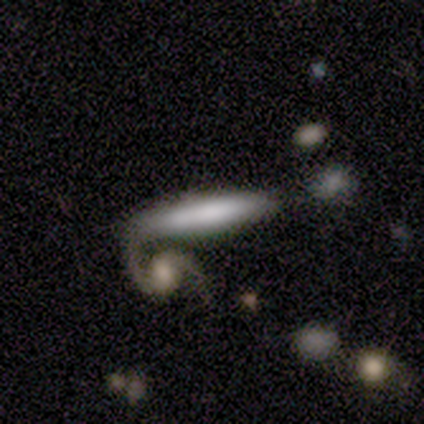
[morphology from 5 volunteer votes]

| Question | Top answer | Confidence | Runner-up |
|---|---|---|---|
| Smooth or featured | smooth | 80% | star or artifact (20%) |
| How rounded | cigar-shaped | 100% | — |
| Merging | none | 50% | tied: merger (50%) |